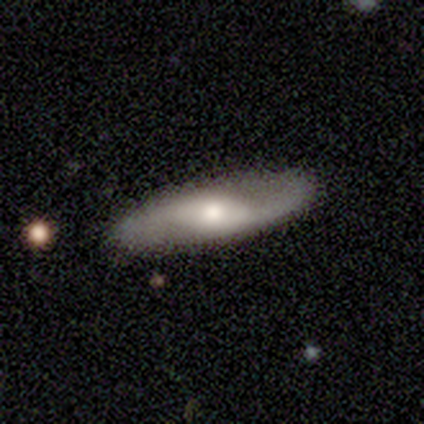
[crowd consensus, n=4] Smooth or featured? featured or disk (75%)
Edge-on disk? yes (67%)
Edge-on bulge? none (50%, tied with rounded)
Merging? none (100%)